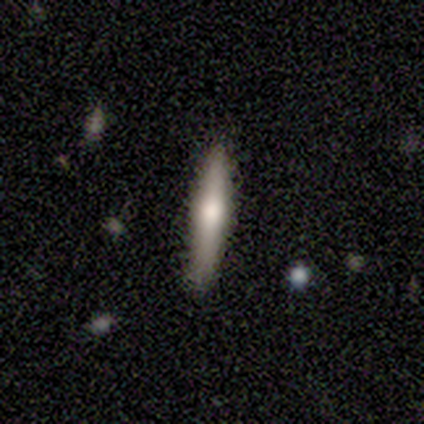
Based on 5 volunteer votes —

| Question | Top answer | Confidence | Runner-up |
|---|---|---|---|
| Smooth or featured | featured or disk | 60% | smooth (40%) |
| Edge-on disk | yes | 100% | — |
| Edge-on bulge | rounded | 100% | — |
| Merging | none | 100% | — |